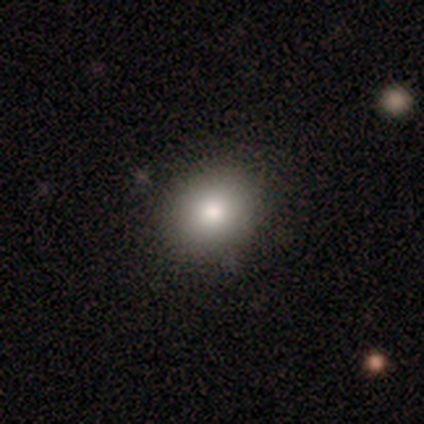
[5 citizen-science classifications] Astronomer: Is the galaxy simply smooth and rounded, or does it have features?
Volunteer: smooth — 60%.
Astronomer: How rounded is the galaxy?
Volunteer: round — 33%, tied with in between and cigar-shaped at 33%.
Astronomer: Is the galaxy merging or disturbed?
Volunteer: none — 75%.